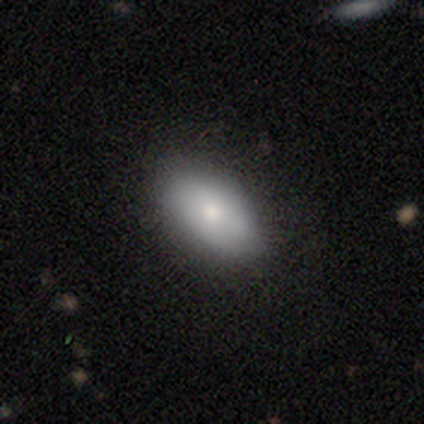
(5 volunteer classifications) smooth_or_featured: smooth (p=0.60) [alt: star or artifact p=0.40]
how_rounded: in between (p=1.00)
merging: none (p=1.00)